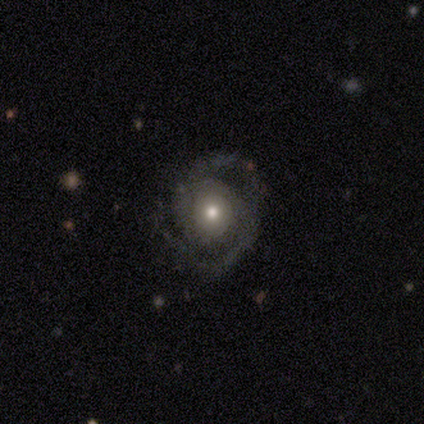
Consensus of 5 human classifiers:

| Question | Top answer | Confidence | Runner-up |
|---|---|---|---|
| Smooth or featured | featured or disk | 100% | — |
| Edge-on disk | no | 100% | — |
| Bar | no | 60% | strong (20%) |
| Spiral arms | yes | 100% | — |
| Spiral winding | medium | 80% | tight (20%) |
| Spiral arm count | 2 | 80% | 3 (20%) |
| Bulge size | moderate | 100% | — |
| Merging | none | 80% | major disturbance (20%) |